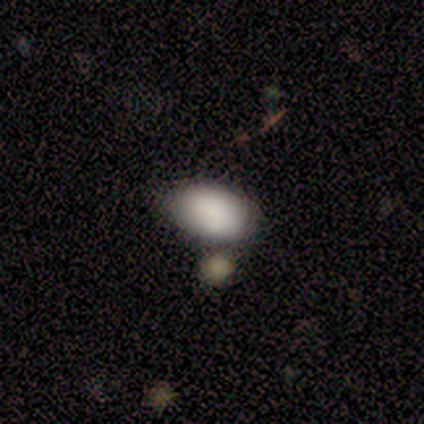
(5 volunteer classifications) This appears to be a smooth galaxy with no disk features (100%) that is in between round and cigar-shaped (100%). Merging: minor disturbance (60%).